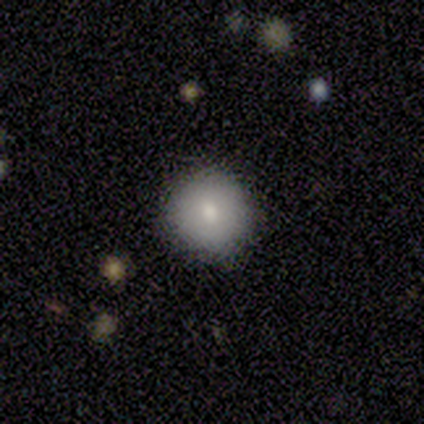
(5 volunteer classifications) smooth-or-featured: smooth: 100% | featured or disk: 0% | star or artifact: 0%
  how-rounded: round: 100% | in between: 0% | cigar-shaped: 0%
  merging: none: 100% | minor disturbance: 0% | major disturbance: 0% | merger: 0%